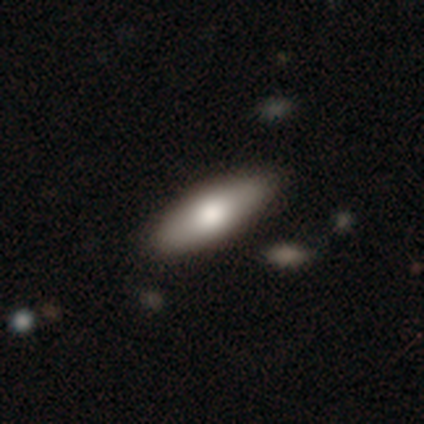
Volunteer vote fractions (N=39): Smooth or featured? 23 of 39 (59%) said smooth. How rounded? 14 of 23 (61%) said in between. Merging? 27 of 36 (75%) said none.